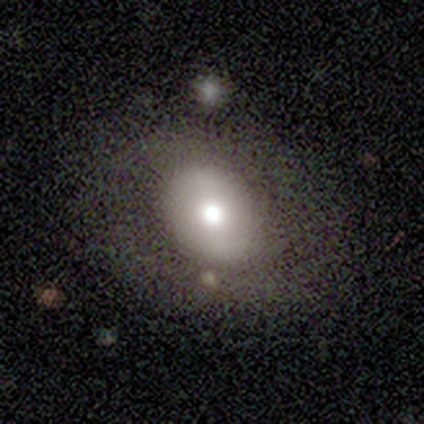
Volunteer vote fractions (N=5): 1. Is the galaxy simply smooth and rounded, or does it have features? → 80% smooth, 20% featured or disk, 0% star or artifact.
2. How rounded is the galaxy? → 75% round, 25% in between, 0% cigar-shaped.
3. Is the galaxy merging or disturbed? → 80% none, 20% major disturbance, 0% minor disturbance, 0% merger.